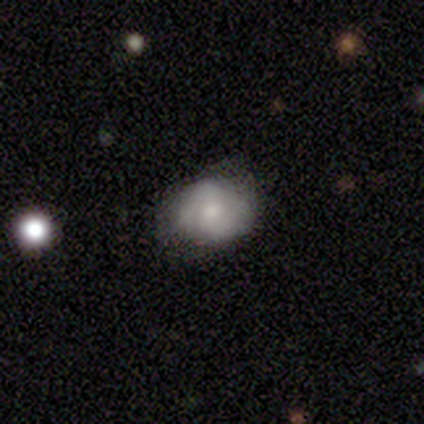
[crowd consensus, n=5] Volunteers were most divided on "merging": none: 60%, minor disturbance: 40%, major disturbance: 0%, merger: 0%. More confident: edge-on disk — no (100%); spiral arms — yes (100%); smooth or featured — featured or disk (80%); spiral winding — tight (75%); spiral arm count — 2 (75%); bulge size — moderate (75%); bar — no (50%).